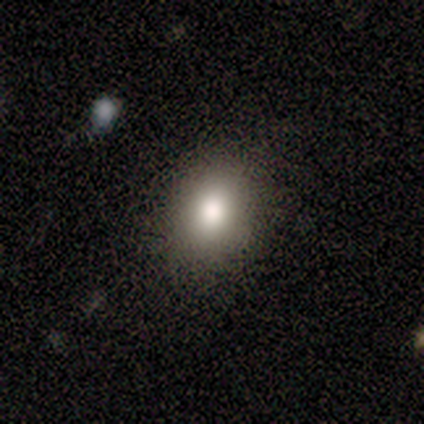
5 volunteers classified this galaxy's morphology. A smooth galaxy with no disk features (80%) that is in between round and cigar-shaped (75%). Merging: none (75%).